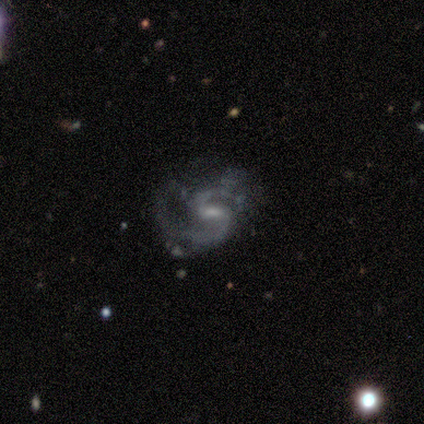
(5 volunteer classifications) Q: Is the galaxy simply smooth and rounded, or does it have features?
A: featured or disk — 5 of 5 (100%).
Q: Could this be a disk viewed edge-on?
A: no — 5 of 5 (100%).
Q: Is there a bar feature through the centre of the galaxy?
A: weak — 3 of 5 (60%).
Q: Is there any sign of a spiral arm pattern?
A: yes — 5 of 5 (100%).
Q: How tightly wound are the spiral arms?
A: medium — 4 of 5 (80%).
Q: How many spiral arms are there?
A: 2 — 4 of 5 (80%).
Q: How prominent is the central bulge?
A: small — 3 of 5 (60%).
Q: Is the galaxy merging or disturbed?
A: none — 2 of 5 (40%, tied with minor disturbance).